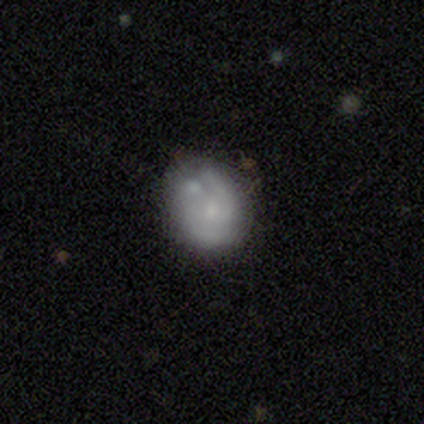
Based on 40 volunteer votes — Smooth or featured? smooth (42%, tied with featured or disk)
How rounded? in between (71%)
Merging? none (44%)